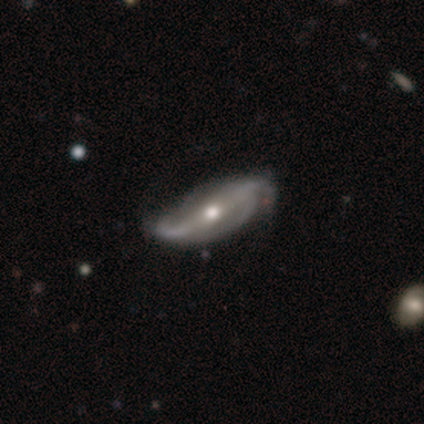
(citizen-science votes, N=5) Smooth or featured? 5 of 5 (100%) said featured or disk. Edge-on disk? 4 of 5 (80%) said no. Bar? 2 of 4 (50%) said strong. Spiral arms? 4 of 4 (100%) said yes. Spiral winding? 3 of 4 (75%) said loose. Spiral arm count? 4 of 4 (100%) said 2. Bulge size? 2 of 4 (50%, tied with small) said moderate. Merging? 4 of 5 (80%) said none.